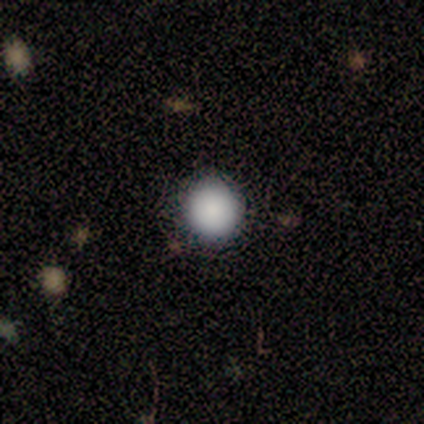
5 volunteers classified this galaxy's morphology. Smooth or featured: smooth — 100%
How rounded: round — 100%
Merging: none — 80% (minor disturbance — 20%)